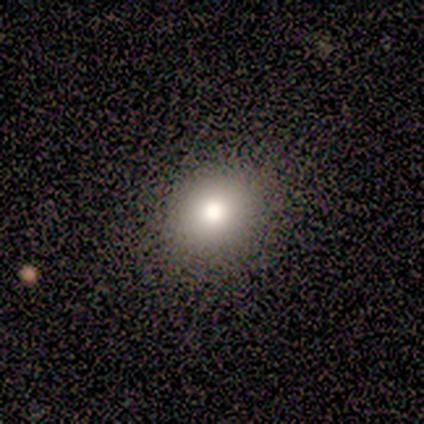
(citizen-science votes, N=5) Q: Smooth or featured?
A: smooth (100%)
Q: How rounded?
A: round (60%); runner-up: in between (40%)
Q: Merging?
A: none (100%)